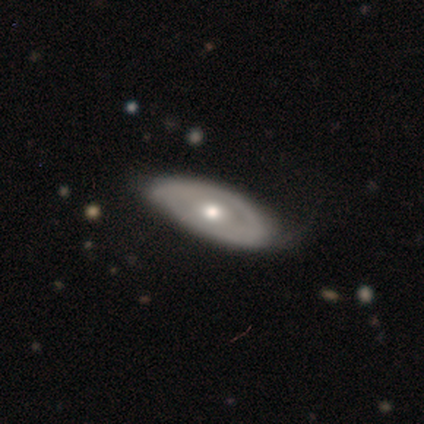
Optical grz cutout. It shows a smooth galaxy with no disk features (80%) that is in between round and cigar-shaped (100%). Merging: none (40%, tied with minor disturbance).